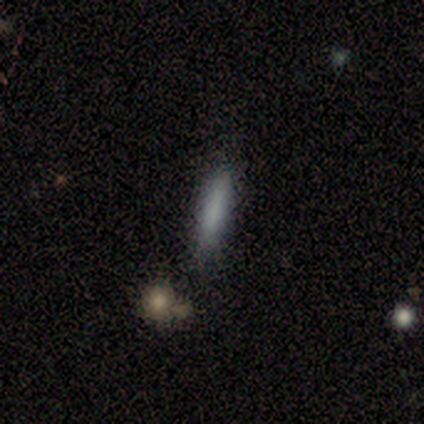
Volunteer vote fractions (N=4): Smooth or featured?
  - smooth: 100% *
  - featured or disk: 0%
  - star or artifact: 0%
How rounded?
  - cigar-shaped: 100% *
  - round: 0%
  - in between: 0%
Merging?
  - none: 100% *
  - minor disturbance: 0%
  - major disturbance: 0%
  - merger: 0%